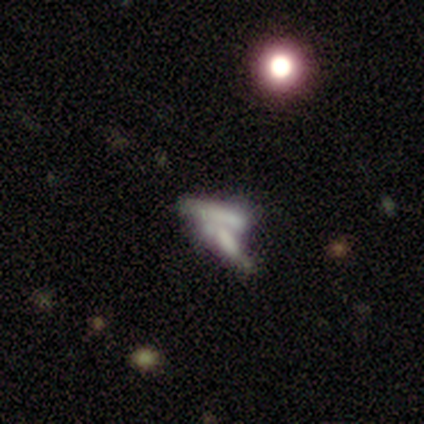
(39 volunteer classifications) Smooth or featured?
  - featured or disk: 51% *
  - smooth: 31%
  - star or artifact: 18%
Edge-on disk?
  - no: 65% *
  - yes: 35%
Bar?
  - no: 85% *
  - weak: 15%
  - strong: 0%
Spiral arms?
  - no: 100% *
  - yes: 0%
Bulge size?
  - none: 92% *
  - dominant: 8%
  - large: 0%
  - moderate: 0%
  - small: 0%
Merging?
  - merger: 81% *
  - major disturbance: 9%
  - none: 6%
  - minor disturbance: 3%